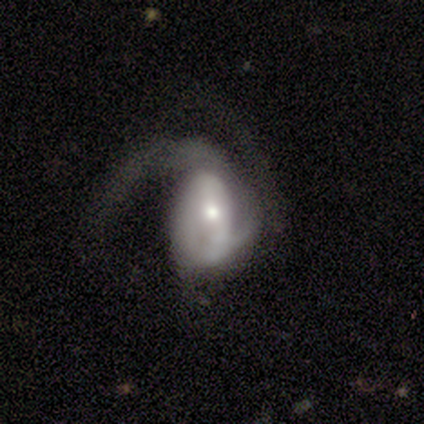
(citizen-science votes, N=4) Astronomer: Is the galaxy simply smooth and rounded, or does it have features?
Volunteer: featured or disk — 75%.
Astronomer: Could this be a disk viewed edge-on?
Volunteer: no — 100%.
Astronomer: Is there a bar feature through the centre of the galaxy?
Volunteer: strong — 33%, tied with weak and no at 33%.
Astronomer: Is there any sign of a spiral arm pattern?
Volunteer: yes — 100%.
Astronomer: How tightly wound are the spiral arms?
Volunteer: loose — 67%.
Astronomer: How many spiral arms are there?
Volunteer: can't tell — 67%.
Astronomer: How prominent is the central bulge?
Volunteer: large — 33%, tied with moderate and small at 33%.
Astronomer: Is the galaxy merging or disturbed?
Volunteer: major disturbance — 100%.